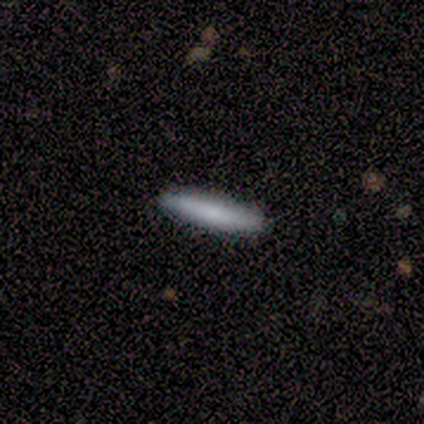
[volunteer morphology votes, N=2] A smooth galaxy with no disk features (100%) that is cigar-shaped (100%). Merging: none (100%).